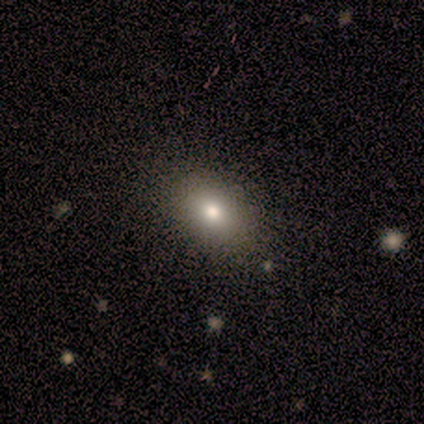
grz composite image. It shows a smooth galaxy with no disk features (40%, tied with featured or disk) that is round (50%, tied with in between). Merging: none (100%).